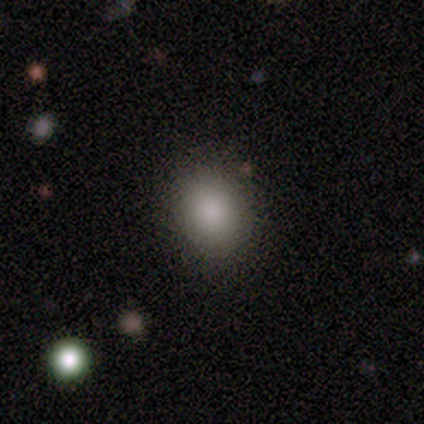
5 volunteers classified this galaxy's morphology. Smooth or featured: smooth — 80% (featured or disk — 20%)
How rounded: round — 50% (tied with in between — 50%)
Merging: none — 100%